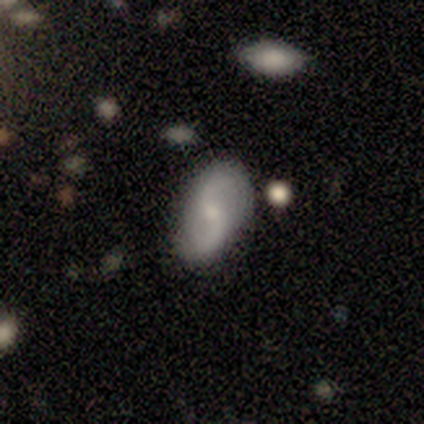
Volunteers were most divided on "spiral winding": loose: 67%, medium: 33%, tight: 0%. More confident: edge-on disk — no (100%); bar — no (100%); spiral arms — yes (100%); spiral arm count — 2 (100%); merging — none (100%); bulge size — small (67%); smooth or featured — featured or disk (60%).